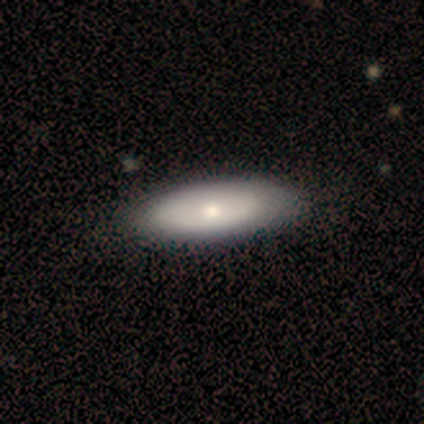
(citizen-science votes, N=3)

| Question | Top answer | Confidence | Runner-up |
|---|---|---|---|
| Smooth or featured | smooth | 67% | featured or disk (33%) |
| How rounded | in between | 100% | — |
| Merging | none | 100% | — |